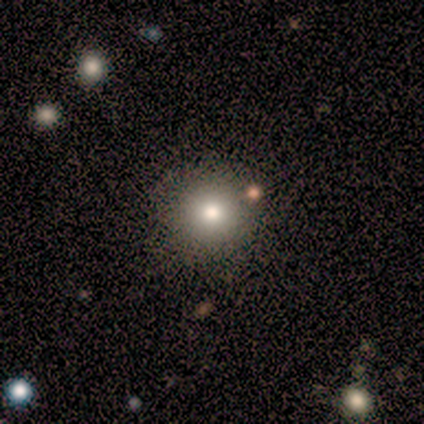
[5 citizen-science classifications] smooth-or-featured: smooth: 60% | featured or disk: 20% | star or artifact: 20%
  how-rounded: round: 100% | in between: 0% | cigar-shaped: 0%
  merging: none: 75% | minor disturbance: 25% | major disturbance: 0% | merger: 0%